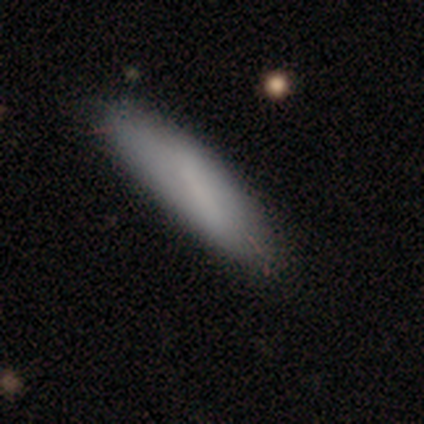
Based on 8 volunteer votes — Morphology: type=smooth (88%); roundness=cigar-shaped (71%); merging=none (62%).